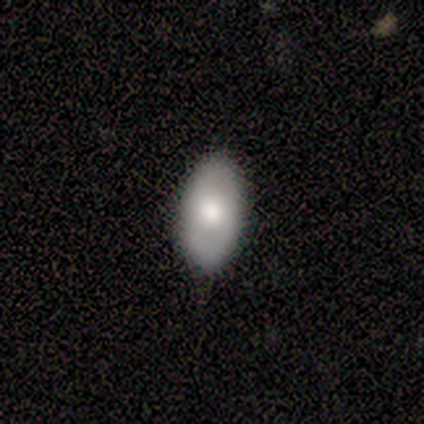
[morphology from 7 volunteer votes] A smooth galaxy with no disk features (57%) that is in between round and cigar-shaped (100%).

Vote fractions:
- Smooth or featured? smooth: 57% / featured or disk: 29% / star or artifact: 14%
- How rounded? in between: 100% / round: 0% / cigar-shaped: 0%
- Merging? none: 67% / minor disturbance: 33% / major disturbance: 0% / merger: 0%